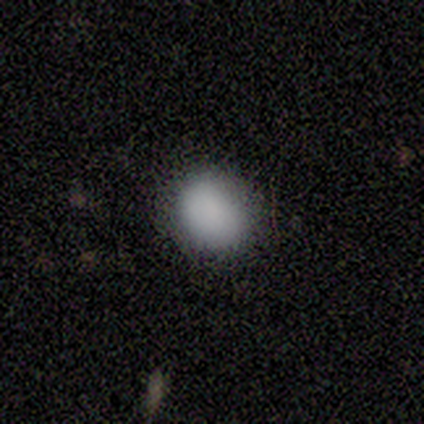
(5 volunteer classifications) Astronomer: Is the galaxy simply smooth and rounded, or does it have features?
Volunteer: smooth — 100%.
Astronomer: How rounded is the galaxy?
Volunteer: round — 80%.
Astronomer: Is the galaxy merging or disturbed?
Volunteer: none — 80%.